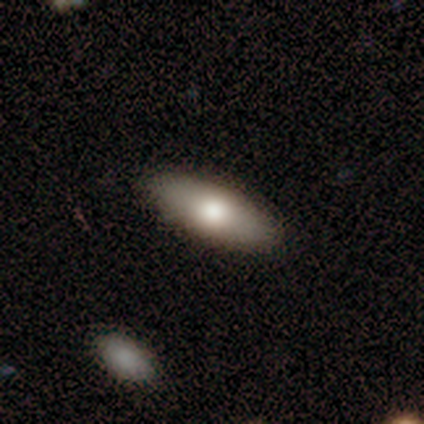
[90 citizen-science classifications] Morphology: type=smooth (77%); roundness=in between (67%); merging=none (89%).